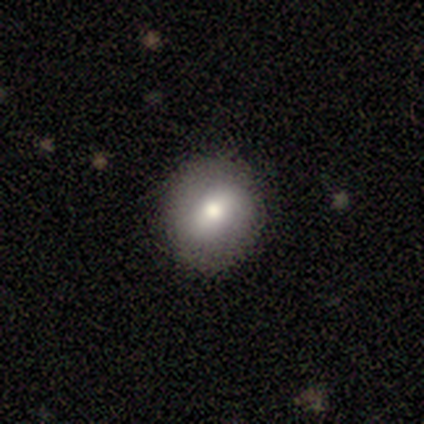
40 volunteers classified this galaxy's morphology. Smooth or featured? 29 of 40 (72%) said smooth. How rounded? 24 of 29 (83%) said round. Merging? 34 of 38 (89%) said none.